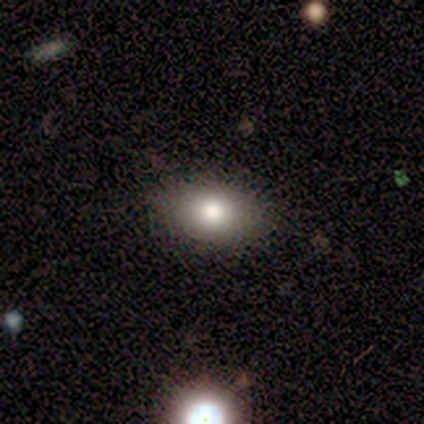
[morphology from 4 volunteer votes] type=smooth (100%); roundness=in between (75%); merging=none (100%).